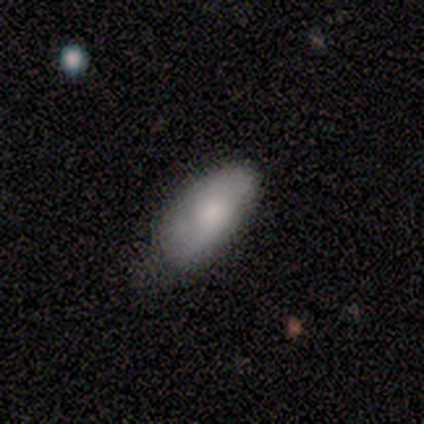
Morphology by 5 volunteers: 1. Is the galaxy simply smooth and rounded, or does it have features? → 60% smooth, 40% featured or disk, 0% star or artifact.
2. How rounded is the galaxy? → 100% in between, 0% round, 0% cigar-shaped.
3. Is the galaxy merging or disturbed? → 100% none, 0% minor disturbance, 0% major disturbance, 0% merger.